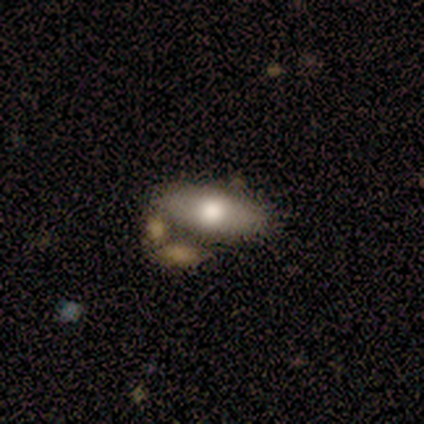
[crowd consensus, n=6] Smooth or featured? smooth (50%, tied with featured or disk)
How rounded? in between (67%)
Merging? none (50%)